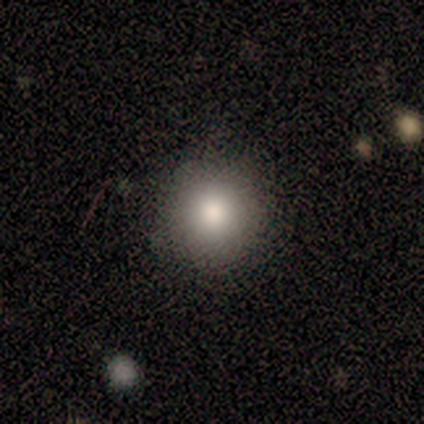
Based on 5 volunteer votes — A smooth galaxy with no disk features (100%) that is round (80%). Merging: none (80%).